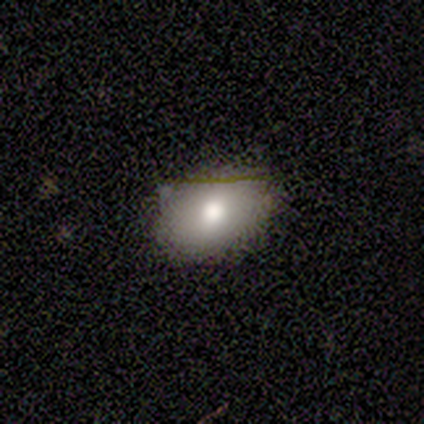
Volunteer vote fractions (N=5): smooth-or-featured: smooth: 80% | featured or disk: 20% | star or artifact: 0%
  how-rounded: in between: 100% | round: 0% | cigar-shaped: 0%
  merging: none: 80% | minor disturbance: 20% | major disturbance: 0% | merger: 0%